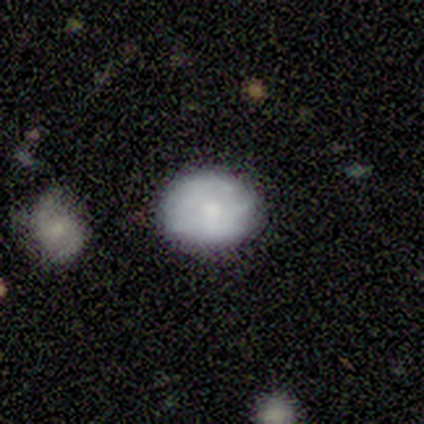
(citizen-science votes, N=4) smooth_or_featured: smooth (p=1.00)
how_rounded: round (p=1.00)
merging: none (p=0.75) [alt: minor disturbance p=0.25]